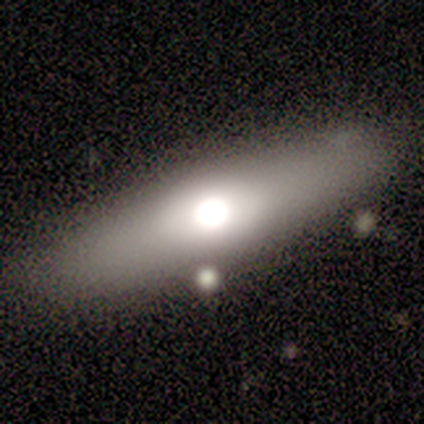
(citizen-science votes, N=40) Smooth or featured?
  - smooth: 50% *
  - featured or disk: 48%
  - star or artifact: 2%
How rounded?
  - cigar-shaped: 60% *
  - in between: 35%
  - round: 5%
Merging?
  - none: 82% *
  - minor disturbance: 13%
  - major disturbance: 5%
  - merger: 0%